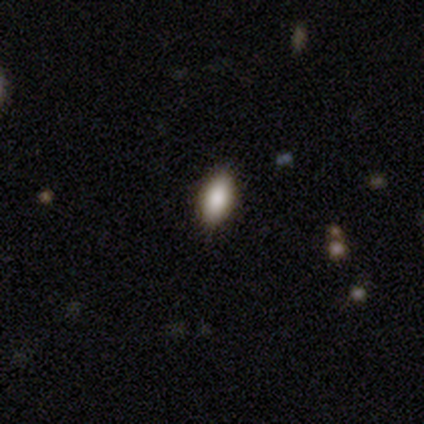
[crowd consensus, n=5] smooth-or-featured: smooth: 80% | star or artifact: 20% | featured or disk: 0%
  how-rounded: in between: 50% | round: 25% | cigar-shaped: 25%
  merging: none: 100% | minor disturbance: 0% | major disturbance: 0% | merger: 0%